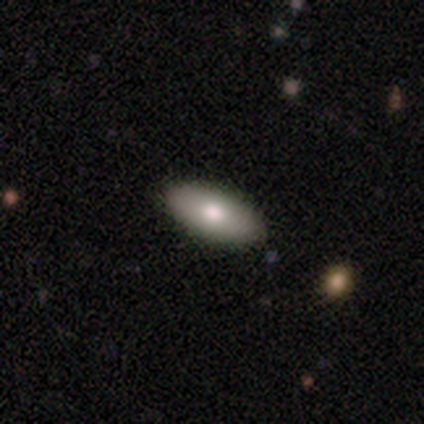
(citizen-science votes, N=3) Q: Smooth or featured?
A: smooth (100%)
Q: How rounded?
A: in between (100%)
Q: Merging?
A: none (100%)